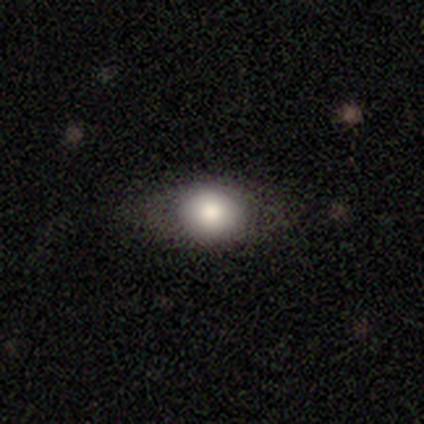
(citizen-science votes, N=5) A smooth galaxy with no disk features (80%) that is in between round and cigar-shaped (75%).

Vote fractions:
- Smooth or featured? smooth: 80% / featured or disk: 20% / star or artifact: 0%
- How rounded? in between: 75% / round: 25% / cigar-shaped: 0%
- Merging? none: 60% / minor disturbance: 20% / major disturbance: 20% / merger: 0%